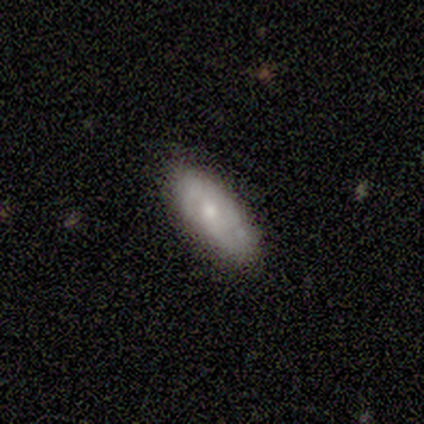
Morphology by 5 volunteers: smooth 80%, star or artifact 20%, featured or disk 0%. Down the decision tree: how rounded — in between (100%); merging — none (100%).